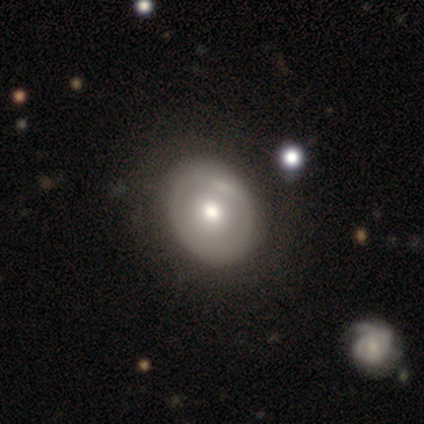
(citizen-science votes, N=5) smooth-or-featured: featured or disk: 60% | smooth: 40% | star or artifact: 0%
  disk-edge-on: no: 100% | yes: 0%
    bar: no: 100% | strong: 0% | weak: 0%
    has-spiral-arms: no: 100% | yes: 0%
    bulge-size: moderate: 67% | small: 33% | dominant: 0% | large: 0% | none: 0%
  merging: none: 100% | minor disturbance: 0% | major disturbance: 0% | merger: 0%